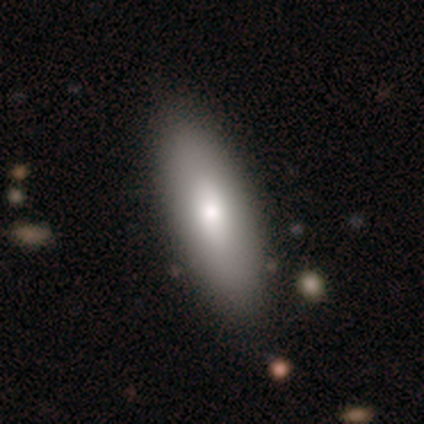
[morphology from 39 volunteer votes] Smooth or featured?
  - smooth: 82% *
  - featured or disk: 15%
  - star or artifact: 3%
How rounded?
  - in between: 78% *
  - cigar-shaped: 22%
  - round: 0%
Merging?
  - none: 82% *
  - minor disturbance: 18%
  - major disturbance: 0%
  - merger: 0%